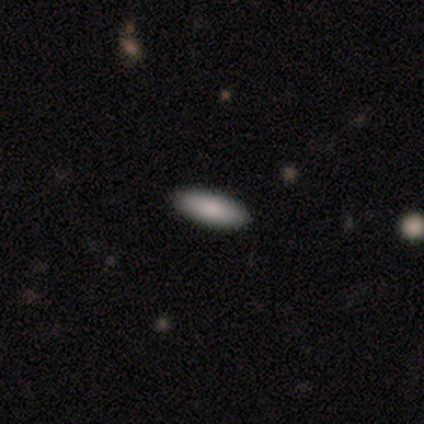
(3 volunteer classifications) Smooth or featured: smooth — 100%
How rounded: in between — 67% (cigar-shaped — 33%)
Merging: none — 100%